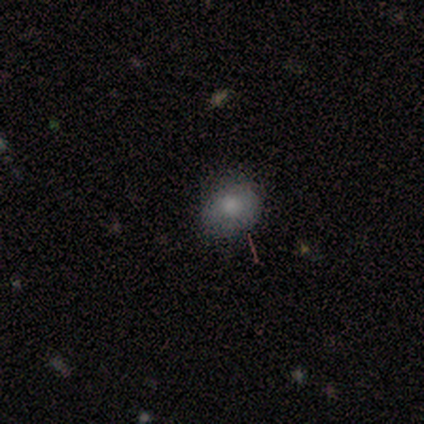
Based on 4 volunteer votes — Smooth or featured?
  - smooth: 75% *
  - featured or disk: 25%
  - star or artifact: 0%
How rounded?
  - round: 100% *
  - in between: 0%
  - cigar-shaped: 0%
Merging?
  - none: 100% *
  - minor disturbance: 0%
  - major disturbance: 0%
  - merger: 0%